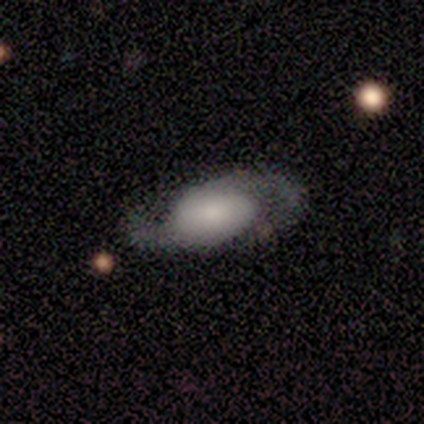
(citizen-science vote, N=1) A featured or disk galaxy (100%) with no bar (100%), 2 (100%) medium (100%) spiral arms (100%) and a dominant central bulge (100%).

Vote fractions:
- Smooth or featured? featured or disk: 100% / smooth: 0% / star or artifact: 0%
- Edge-on disk? no: 100% / yes: 0%
- Bar? no: 100% / strong: 0% / weak: 0%
- Spiral arms? yes: 100% / no: 0%
- Spiral winding? medium: 100% / tight: 0% / loose: 0%
- Spiral arm count? 2: 100% / 1: 0% / 3: 0% / 4: 0% / more than 4: 0% / can't tell: 0%
- Bulge size? dominant: 100% / large: 0% / moderate: 0% / small: 0% / none: 0%
- Merging? major disturbance: 100% / none: 0% / minor disturbance: 0% / merger: 0%